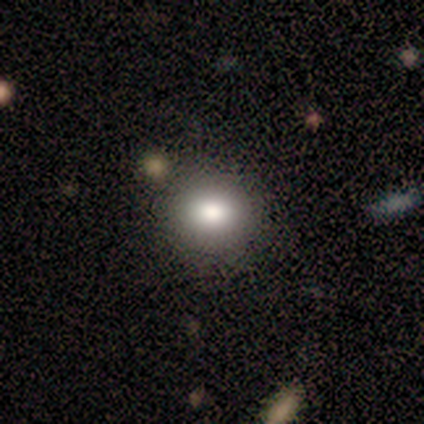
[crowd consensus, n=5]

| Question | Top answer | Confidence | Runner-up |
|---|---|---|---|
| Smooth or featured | smooth | 60% | featured or disk (20%) |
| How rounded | in between | 67% | round (33%) |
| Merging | none | 100% | — |